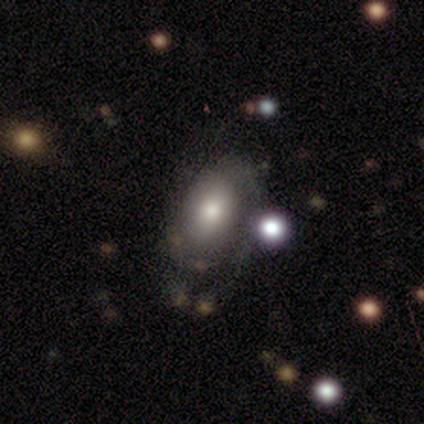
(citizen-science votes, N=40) Smooth or featured: featured or disk — 50% (smooth — 38%)
Edge-on disk: no — 95% (yes — 5%)
Bar: no — 89% (strong — 5%)
Spiral arms: yes — 53% (no — 47%)
Spiral winding: tight — 80% (medium — 20%)
Spiral arm count: 2 — 40% (can't tell — 30%)
Bulge size: moderate — 68% (small — 21%)
Merging: none — 54% (major disturbance — 26%)